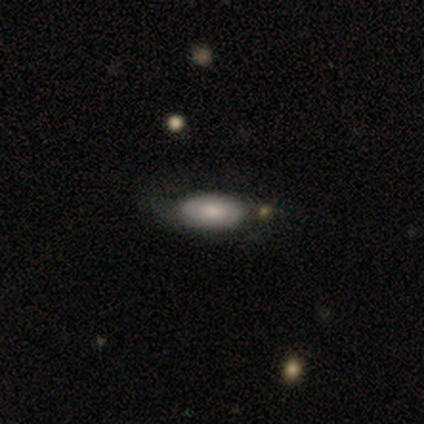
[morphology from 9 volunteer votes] A smooth galaxy with no disk features (89%) that is in between round and cigar-shaped (88%). Merging: none (44%, tied with minor disturbance).